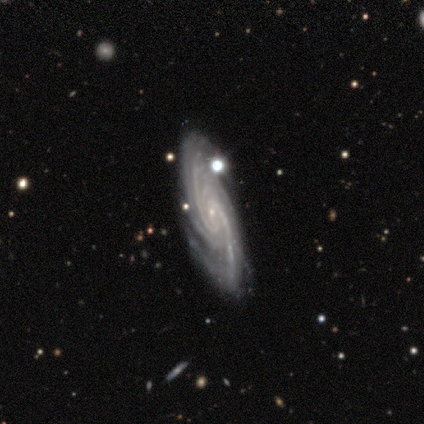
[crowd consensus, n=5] This is clearly a featured or disk galaxy (100%). It is clearly not viewed edge-on (80%). Bar: clearly no (100%). Spiral arm pattern: clearly yes (100%). Spiral arm count: likely can't tell (75%). Spiral winding: likely tight (75%). Central bulge: clearly small (100%). Merging: clearly none (100%).